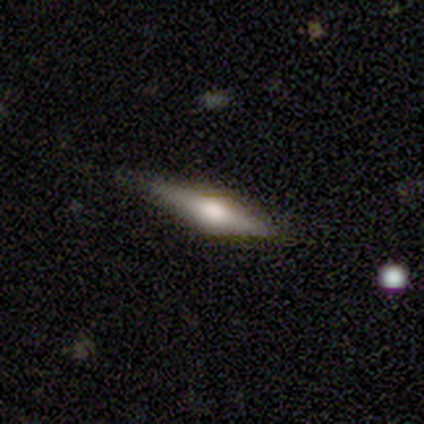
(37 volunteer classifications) Smooth or featured: featured or disk — 70% (smooth — 27%)
Edge-on disk: yes — 96% (no — 4%)
Edge-on bulge: rounded — 100%
Merging: none — 81% (minor disturbance — 17%)